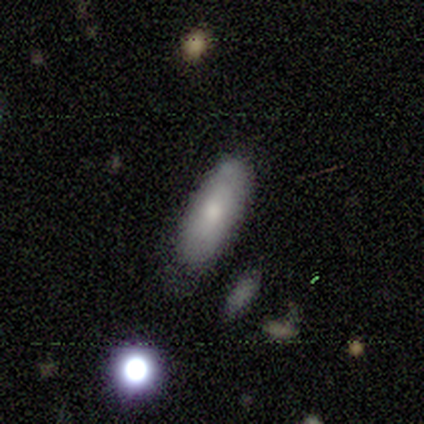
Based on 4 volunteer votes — Morphology: type=smooth (100%); roundness=in between (75%); merging=none (75%).